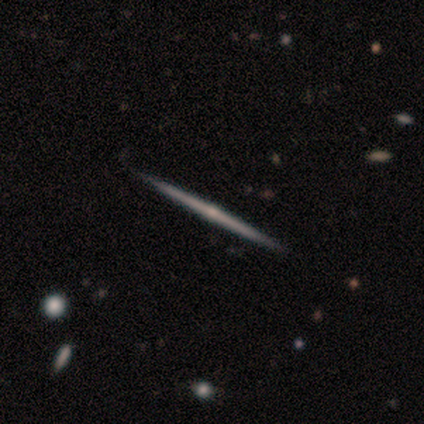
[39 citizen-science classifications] smooth_or_featured: featured or disk (p=0.67) [alt: smooth p=0.21]
disk_edge_on: yes (p=1.00)
edge_on_bulge: rounded (p=0.77) [alt: none p=0.23]
merging: none (p=0.94) [alt: minor disturbance p=0.03]